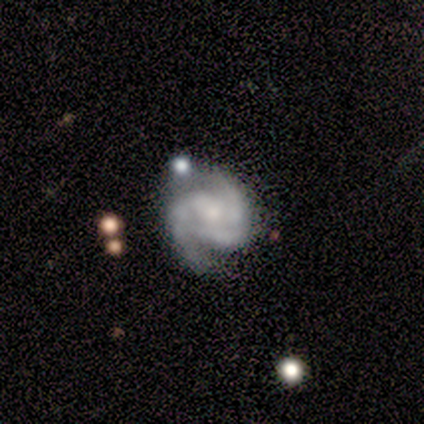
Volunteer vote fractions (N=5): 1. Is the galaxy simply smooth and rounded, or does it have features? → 100% featured or disk, 0% smooth, 0% star or artifact.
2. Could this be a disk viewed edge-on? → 80% no, 20% yes.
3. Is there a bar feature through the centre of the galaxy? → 75% no, 25% weak, 0% strong.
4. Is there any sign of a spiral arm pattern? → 100% yes, 0% no.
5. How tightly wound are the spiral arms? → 75% tight, 25% medium, 0% loose.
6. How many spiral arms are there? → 50% 2, 25% 3, 25% can't tell, 0% 1, 0% 4, 0% more than 4.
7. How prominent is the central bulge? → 50% small, 25% large, 25% none, 0% dominant, 0% moderate.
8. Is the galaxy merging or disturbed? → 40% none (tied), 40% minor disturbance (tied), 20% major disturbance, 0% merger.